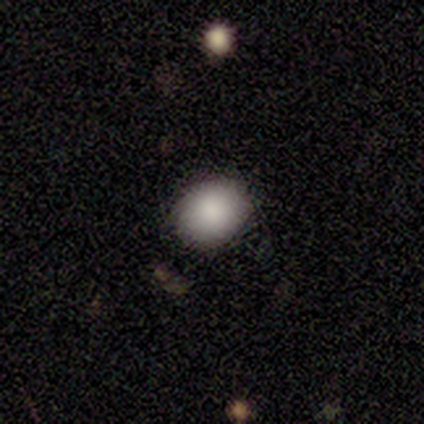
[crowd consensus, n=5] Smooth or featured? smooth (80%)
How rounded? round (50%, tied with in between)
Merging? none (100%)